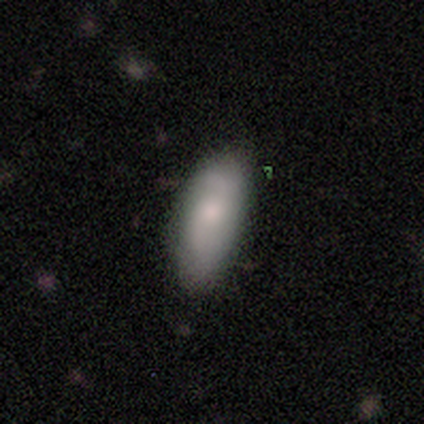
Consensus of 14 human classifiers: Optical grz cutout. It shows a smooth galaxy with no disk features (64%) that is in between round and cigar-shaped (78%). Merging: none (64%).